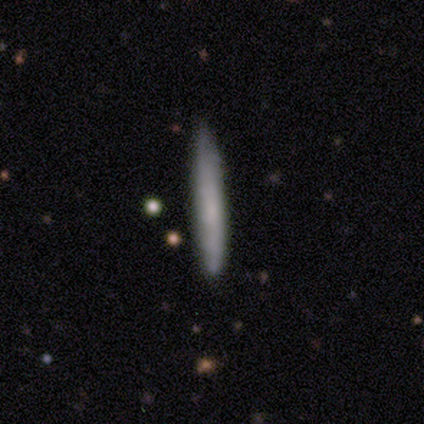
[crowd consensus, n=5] Morphology: type=smooth (100%); roundness=cigar-shaped (80%); merging=none (100%).